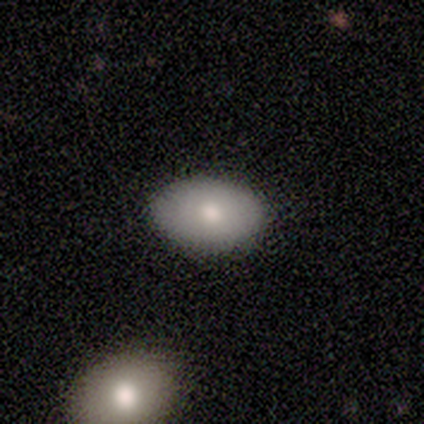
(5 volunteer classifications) Overall: smooth (100%). How rounded: in between (100%). Merging: none (80%).